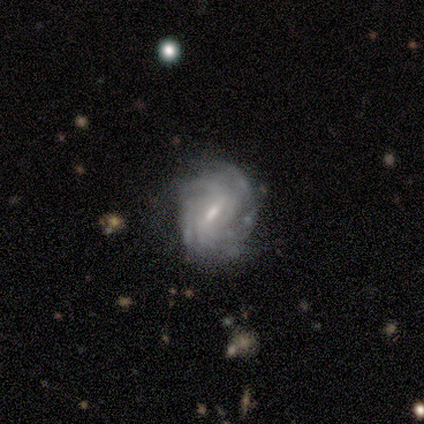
A featured or disk galaxy (40%, tied with star or artifact) with a weak bar (100%), 4 (50%, tied with can't tell) medium (100%) spiral arms (100%) and a small central bulge (50%, tied with none). Merging: none (67%).